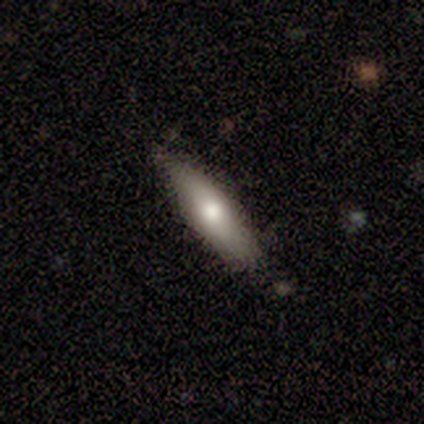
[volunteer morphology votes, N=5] Smooth or featured?
  - featured or disk: 60% *
  - smooth: 40%
  - star or artifact: 0%
Edge-on disk?
  - no: 67% *
  - yes: 33%
Bar?
  - weak: 50% * (tied)
  - no: 50% * (tied)
  - strong: 0%
Spiral arms?
  - yes: 50% * (tied)
  - no: 50% * (tied)
Spiral winding?
  - loose: 100% *
  - tight: 0%
  - medium: 0%
Spiral arm count?
  - 2: 100% *
  - 1: 0%
  - 3: 0%
  - 4: 0%
  - more than 4: 0%
  - can't tell: 0%
Bulge size?
  - moderate: 50% * (tied)
  - small: 50% * (tied)
  - dominant: 0%
  - large: 0%
  - none: 0%
Merging?
  - none: 100% *
  - minor disturbance: 0%
  - major disturbance: 0%
  - merger: 0%